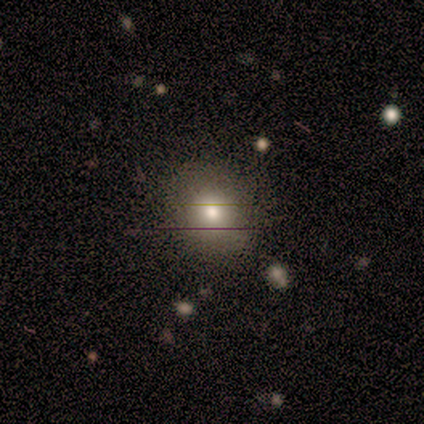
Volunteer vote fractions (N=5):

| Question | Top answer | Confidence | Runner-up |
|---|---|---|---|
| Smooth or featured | smooth | 100% | — |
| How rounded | round | 100% | — |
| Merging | none | 100% | — |